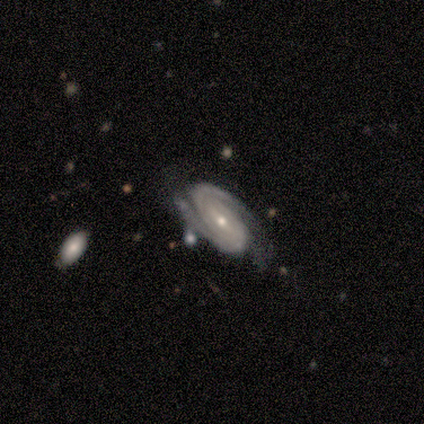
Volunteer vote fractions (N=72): Smooth or featured? featured or disk (94%)
Edge-on disk? no (93%)
Bar? weak (41%)
Spiral arms? yes (98%)
Spiral winding? tight (66%)
Spiral arm count? 2 (82%)
Bulge size? small (56%)
Merging? none (64%)